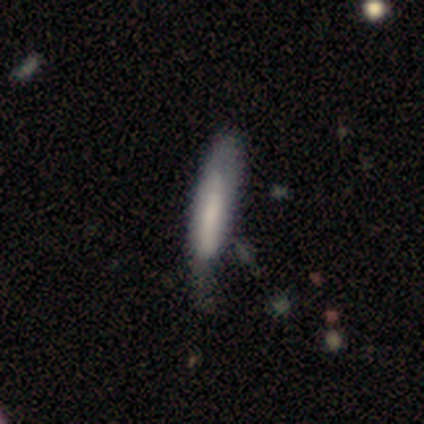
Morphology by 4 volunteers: A smooth galaxy with no disk features (50%, tied with featured or disk) that is cigar-shaped (100%).

Vote fractions:
- Smooth or featured? smooth: 50% (tied) / featured or disk: 50% (tied) / star or artifact: 0%
- How rounded? cigar-shaped: 100% / round: 0% / in between: 0%
- Merging? minor disturbance: 100% / none: 0% / major disturbance: 0% / merger: 0%